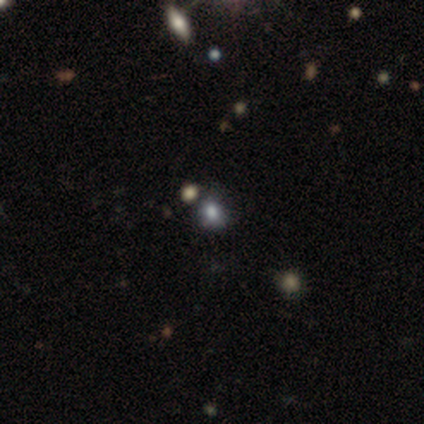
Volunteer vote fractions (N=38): Volunteers were most divided on "how rounded": round: 57%, in between: 43%, cigar-shaped: 0%. More confident: merging — none (65%); smooth or featured — smooth (61%).